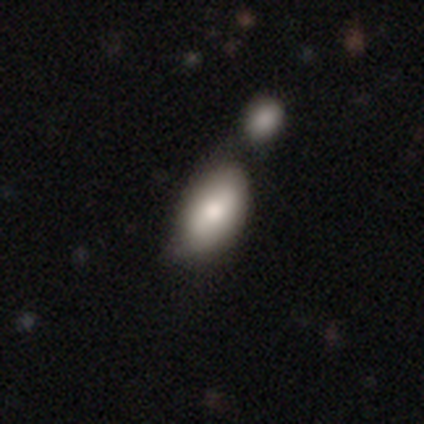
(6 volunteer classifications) A smooth galaxy with no disk features (50%, tied with featured or disk) that is in between round and cigar-shaped (100%).

Vote fractions:
- Smooth or featured? smooth: 50% (tied) / featured or disk: 50% (tied) / star or artifact: 0%
- How rounded? in between: 100% / round: 0% / cigar-shaped: 0%
- Merging? none: 33% (tied) / minor disturbance: 33% (tied) / merger: 33% (tied) / major disturbance: 0%